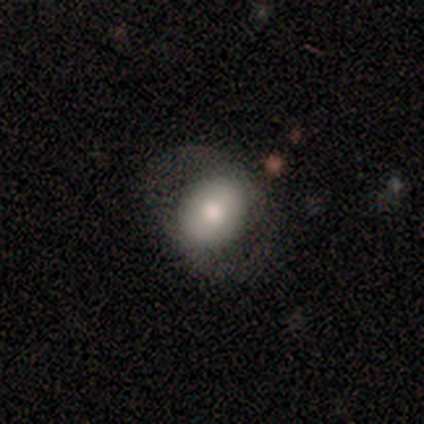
This appears to be a featured or disk galaxy (60%) with no bar (67%), no spiral arms (67%) and a moderate central bulge (67%). Merging: none (60%).